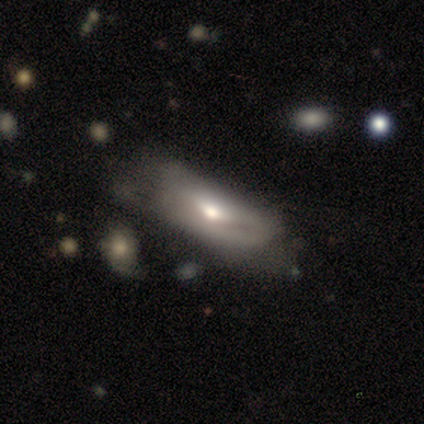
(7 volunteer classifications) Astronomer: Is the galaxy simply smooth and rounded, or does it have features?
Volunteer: smooth — 57% (runner-up: featured or disk, 43%).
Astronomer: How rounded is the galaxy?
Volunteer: in between — 100%.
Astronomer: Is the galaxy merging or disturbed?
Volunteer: none — 43% (runner-up: minor disturbance, 29%).